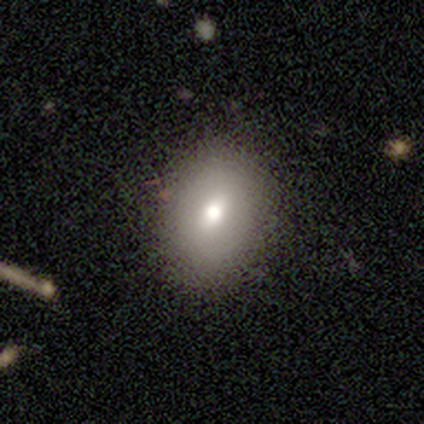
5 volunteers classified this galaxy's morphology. Smooth or featured? smooth (80%)
How rounded? in between (75%)
Merging? none (80%)